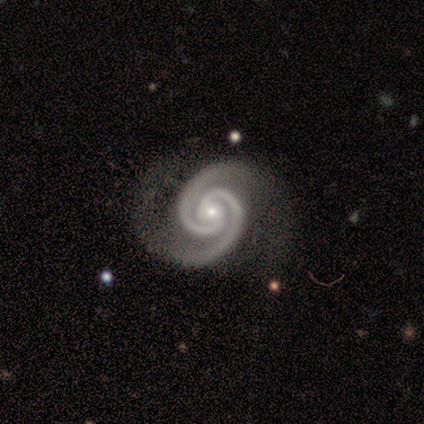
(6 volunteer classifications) smooth-or-featured: featured or disk: 100% | smooth: 0% | star or artifact: 0%
  disk-edge-on: no: 100% | yes: 0%
    bar: no: 83% | weak: 17% | strong: 0%
    has-spiral-arms: yes: 100% | no: 0%
      spiral-winding: tight: 100% | medium: 0% | loose: 0%
      spiral-arm-count: 2: 100% | 1: 0% | 3: 0% | 4: 0% | more than 4: 0% | can't tell: 0%
    bulge-size: small: 83% | moderate: 17% | dominant: 0% | large: 0% | none: 0%
  merging: none: 67% | minor disturbance: 33% | major disturbance: 0% | merger: 0%